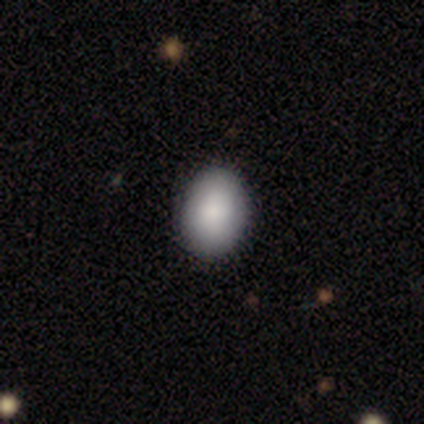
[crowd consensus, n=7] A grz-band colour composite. It shows a smooth galaxy with no disk features (100%) that is in between round and cigar-shaped (86%). Merging: none (100%).